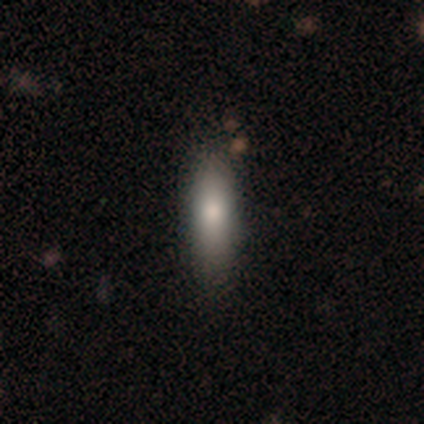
A smooth galaxy with no disk features (100%) that is in between round and cigar-shaped (75%). Merging: none (75%).